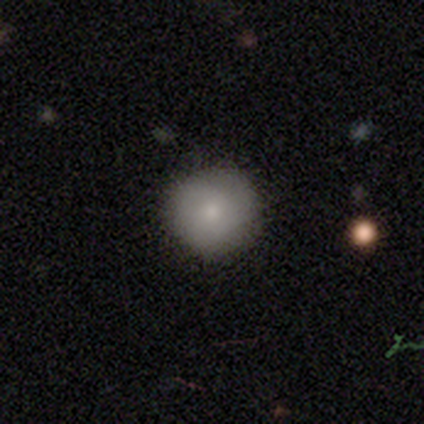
Morphology: type=smooth (100%); roundness=round (100%); merging=none (100%).